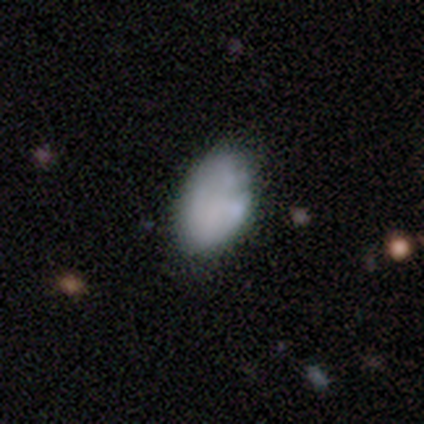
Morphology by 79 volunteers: Overall: smooth (67%). How rounded: in between (87%). Merging: none (22%, tied with minor disturbance).